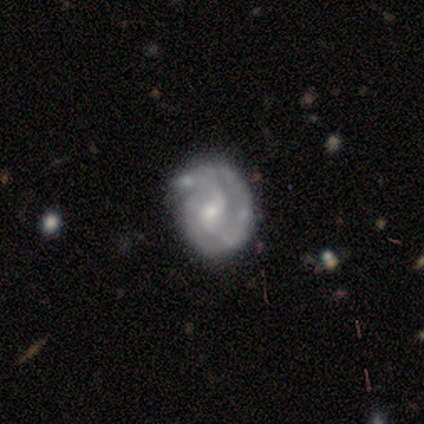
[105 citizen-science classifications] A featured or disk galaxy (75%) with a weak bar (48%, tied with no), 2 (43%) tight (64%) spiral arms (94%) and a moderate central bulge (55%).

Vote fractions:
- Smooth or featured? featured or disk: 75% / smooth: 19% / star or artifact: 6%
- Edge-on disk? no: 97% / yes: 3%
- Bar? weak: 48% (tied) / no: 48% (tied) / strong: 4%
- Spiral arms? yes: 94% / no: 6%
- Spiral winding? tight: 64% / medium: 29% / loose: 7%
- Spiral arm count? 2: 43% / 3: 35% / can't tell: 12% / 1: 10% / 4: 0% / more than 4: 0%
- Bulge size? moderate: 55% / small: 39% / large: 4% / none: 3% / dominant: 0%
- Merging? none: 51% / minor disturbance: 33% / major disturbance: 12% / merger: 4%